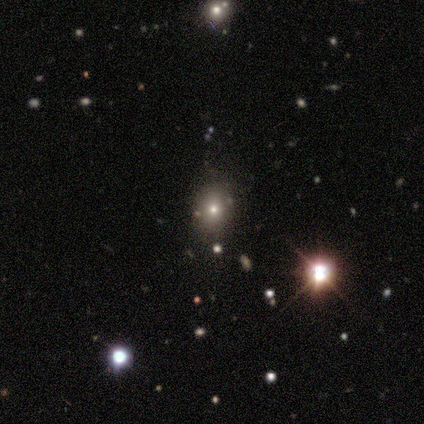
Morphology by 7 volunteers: Smooth or featured: smooth — 71% (featured or disk — 14%)
How rounded: in between — 100%
Merging: none — 67% (minor disturbance — 33%)